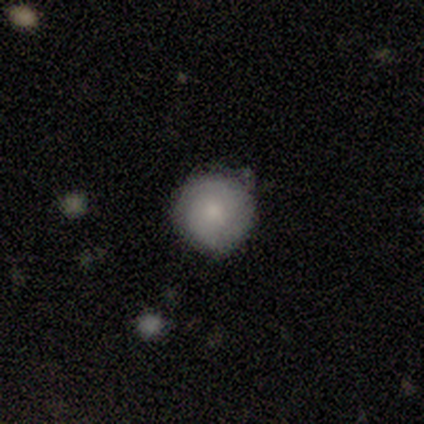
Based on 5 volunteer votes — smooth-or-featured: smooth: 80% | featured or disk: 20% | star or artifact: 0%
  how-rounded: round: 75% | in between: 25% | cigar-shaped: 0%
  merging: none: 60% | minor disturbance: 40% | major disturbance: 0% | merger: 0%